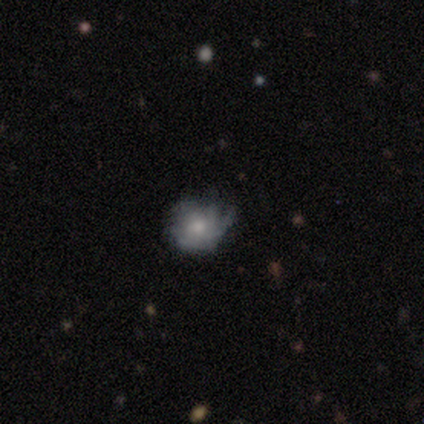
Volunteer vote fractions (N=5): Smooth or featured? featured or disk (60%)
Edge-on disk? no (100%)
Bar? no (67%)
Spiral arms? no (67%)
Bulge size? large (33%, tied with moderate and small)
Merging? minor disturbance (60%)